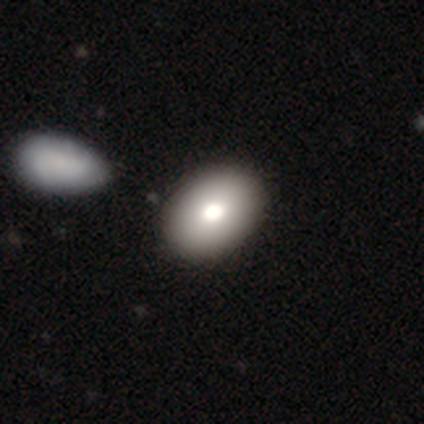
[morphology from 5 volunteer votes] Overall: smooth (60%; featured or disk 40%). How rounded: in between (100%). Merging: none (80%).